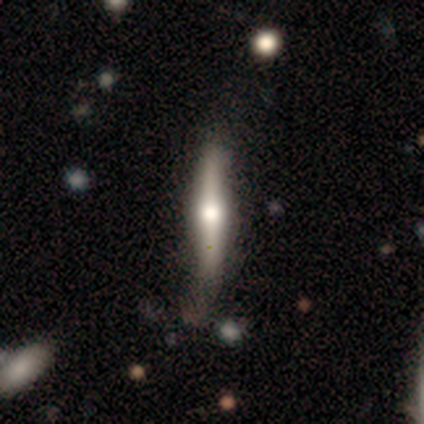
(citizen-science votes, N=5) smooth_or_featured: featured or disk (p=0.80) [alt: smooth p=0.20]
disk_edge_on: yes (p=1.00)
edge_on_bulge: rounded (p=1.00)
merging: minor disturbance (p=0.60) [alt: none p=0.40]